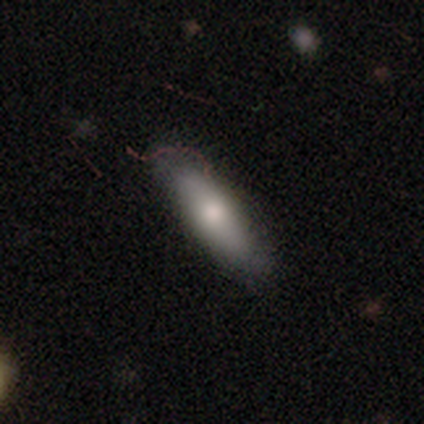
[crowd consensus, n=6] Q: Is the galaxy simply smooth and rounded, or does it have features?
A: smooth — 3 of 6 (50%).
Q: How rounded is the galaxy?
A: cigar-shaped — 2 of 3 (67%).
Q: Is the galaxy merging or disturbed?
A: none — 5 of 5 (100%).